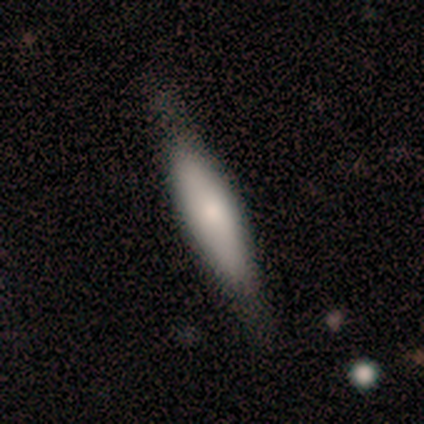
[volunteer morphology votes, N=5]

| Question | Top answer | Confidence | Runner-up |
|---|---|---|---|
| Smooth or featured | smooth | 80% | featured or disk (20%) |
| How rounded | in between | 75% | cigar-shaped (25%) |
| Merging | none | 100% | — |